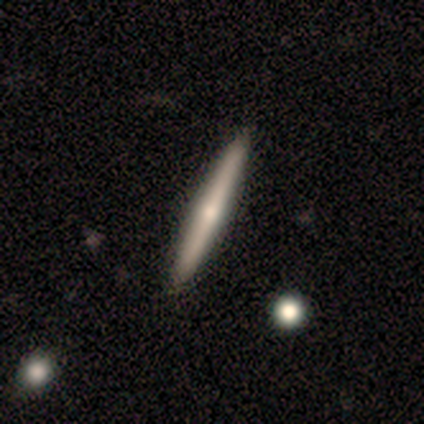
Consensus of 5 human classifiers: Q: Smooth or featured?
A: smooth (60%); runner-up: featured or disk (40%)
Q: How rounded?
A: cigar-shaped (100%)
Q: Merging?
A: none (100%)